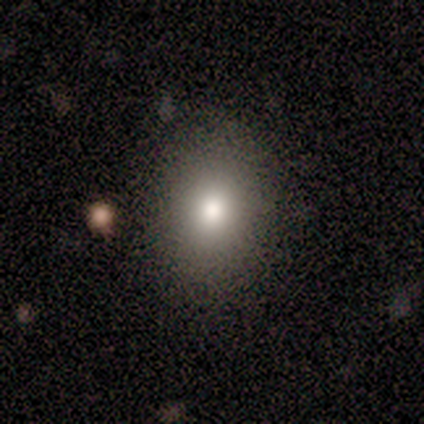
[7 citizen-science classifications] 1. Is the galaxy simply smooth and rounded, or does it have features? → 71% smooth, 29% star or artifact, 0% featured or disk.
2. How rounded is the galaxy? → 60% in between, 40% round, 0% cigar-shaped.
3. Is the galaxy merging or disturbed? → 80% none, 20% minor disturbance, 0% major disturbance, 0% merger.